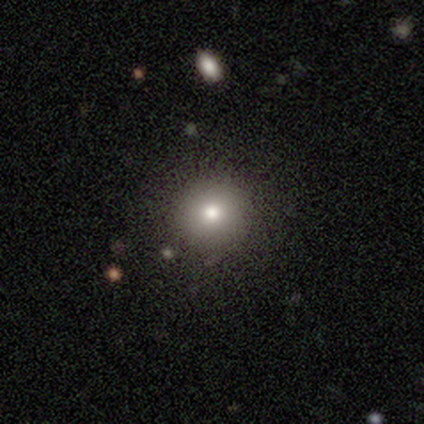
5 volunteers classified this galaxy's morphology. Volunteers were most divided on "smooth or featured": smooth: 60%, featured or disk: 40%, star or artifact: 0%. More confident: how rounded — round (100%); merging — none (100%).